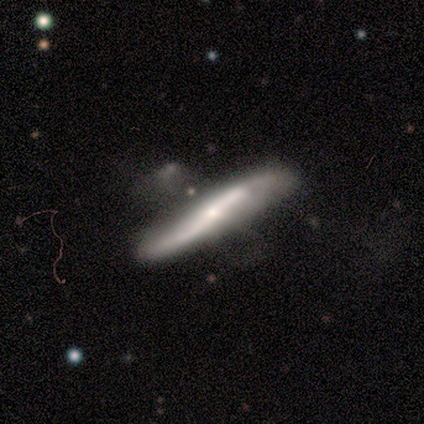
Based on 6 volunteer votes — Smooth or featured? 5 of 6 (83%) said featured or disk. Edge-on disk? 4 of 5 (80%) said no. Bar? 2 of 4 (50%) said strong. Spiral arms? 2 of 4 (50%, tied with no) said yes. Spiral winding? 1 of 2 (50%, tied with loose) said medium. Spiral arm count? 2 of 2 (100%) said 2. Bulge size? 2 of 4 (50%) said moderate. Merging? 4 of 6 (67%) said minor disturbance.